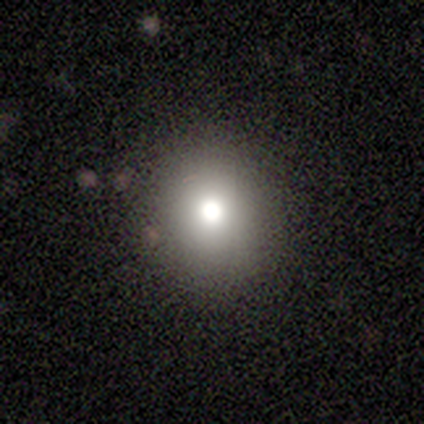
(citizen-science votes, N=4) Smooth or featured? smooth (50%)
How rounded? round (100%)
Merging? none (67%)